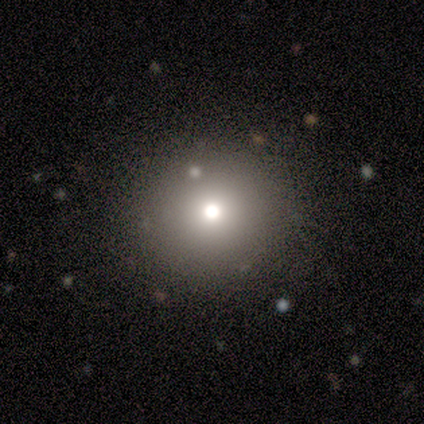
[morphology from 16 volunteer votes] A smooth galaxy with no disk features (69%) that is round (91%).

Vote fractions:
- Smooth or featured? smooth: 69% / star or artifact: 25% / featured or disk: 6%
- How rounded? round: 91% / in between: 9% / cigar-shaped: 0%
- Merging? none: 83% / minor disturbance: 8% / major disturbance: 8% / merger: 0%